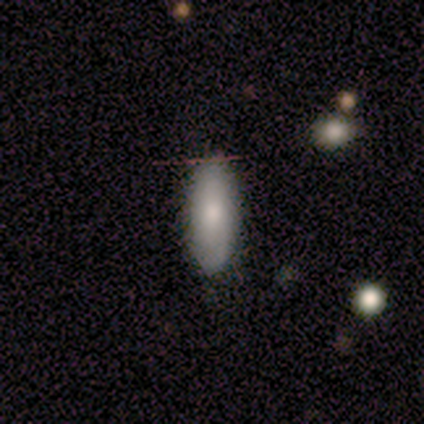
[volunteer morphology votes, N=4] Smooth or featured: smooth — 100%
How rounded: in between — 100%
Merging: none — 100%